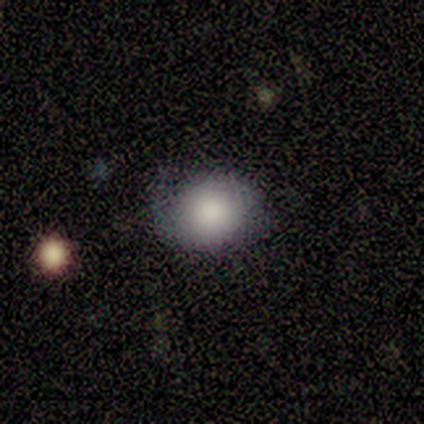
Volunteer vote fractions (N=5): This is clearly a smooth galaxy (100%). How rounded: clearly round (80%). Merging: clearly none (100%).